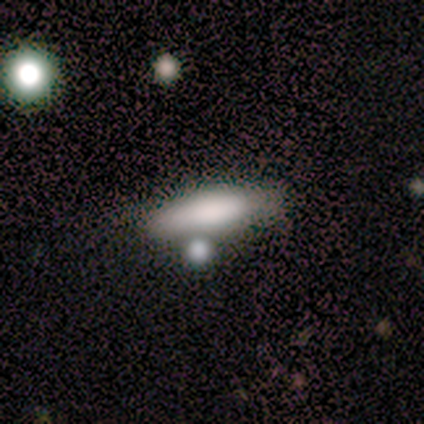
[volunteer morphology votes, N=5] type=smooth (100%); roundness=cigar-shaped (80%); merging=none (100%).